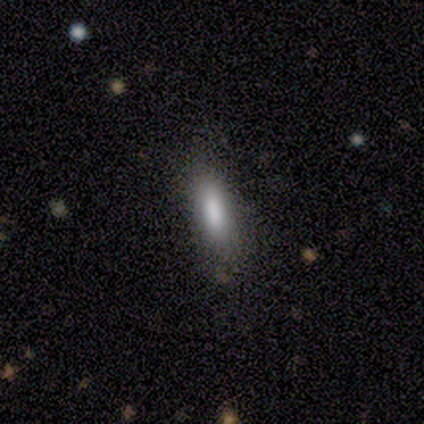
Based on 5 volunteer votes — Smooth or featured: smooth — 60% (featured or disk — 20%)
How rounded: in between — 67% (cigar-shaped — 33%)
Merging: none — 100%